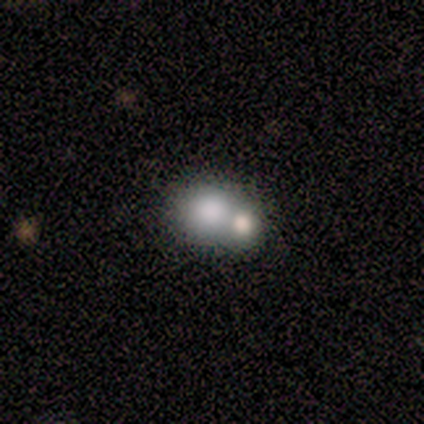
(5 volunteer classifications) Smooth or featured? 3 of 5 (60%) said smooth. How rounded? 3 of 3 (100%) said round. Merging? 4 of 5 (80%) said merger.